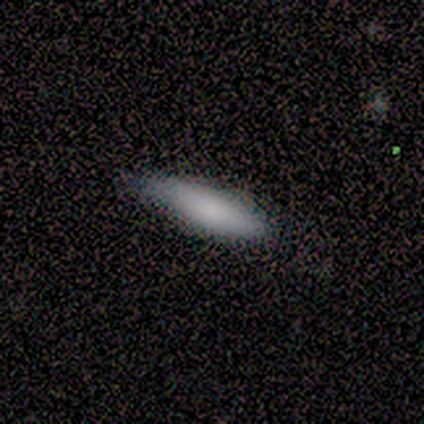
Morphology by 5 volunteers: Smooth or featured?
  - smooth: 80% *
  - featured or disk: 20%
  - star or artifact: 0%
How rounded?
  - in between: 50% * (tied)
  - cigar-shaped: 50% * (tied)
  - round: 0%
Merging?
  - none: 80% *
  - minor disturbance: 20%
  - major disturbance: 0%
  - merger: 0%